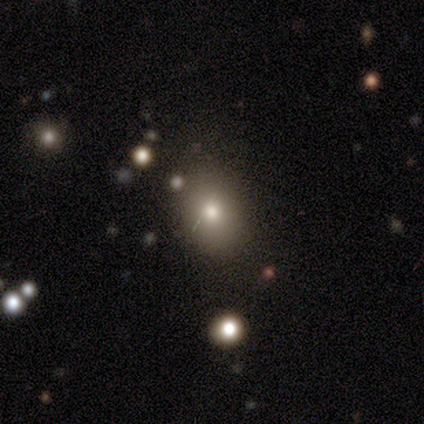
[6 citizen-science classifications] smooth_or_featured: smooth (p=0.50) [alt: star or artifact p=0.33]
how_rounded: in between (p=0.67) [alt: round p=0.33]
merging: none (p=0.75) [alt: minor disturbance p=0.25]